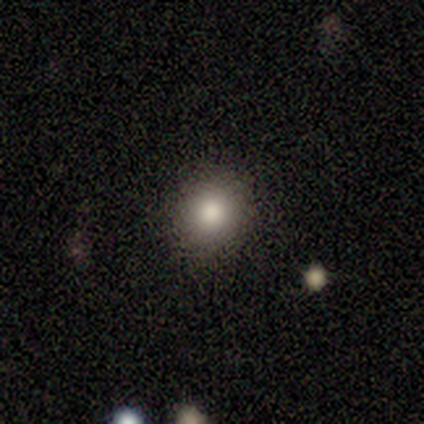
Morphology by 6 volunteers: Smooth or featured: smooth — 67% (featured or disk — 17%)
How rounded: round — 100%
Merging: none — 80% (minor disturbance — 20%)